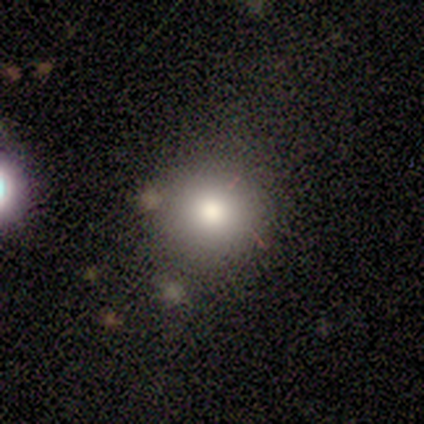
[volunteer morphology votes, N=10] This appears to be a smooth galaxy with no disk features (70%) that is round (86%). Merging: none (90%).